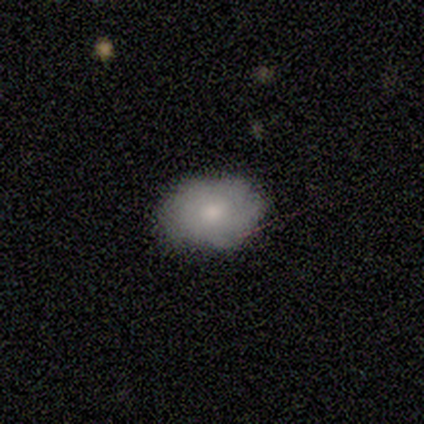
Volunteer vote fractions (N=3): Smooth or featured? 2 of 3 (67%) said smooth. How rounded? 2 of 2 (100%) said in between. Merging? 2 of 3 (67%) said none.